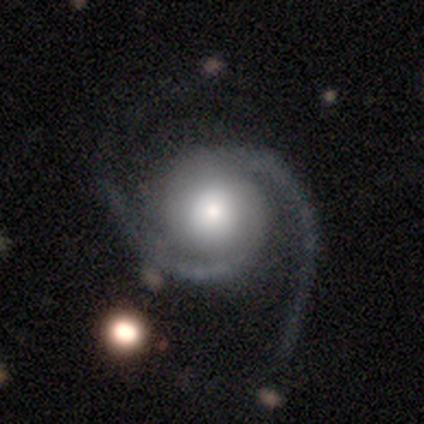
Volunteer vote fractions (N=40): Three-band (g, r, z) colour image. It shows a featured or disk galaxy (90%) with no bar (78%), 2 (94%) medium (56%) spiral arms (100%) and a moderate central bulge (53%). Merging: none (57%).